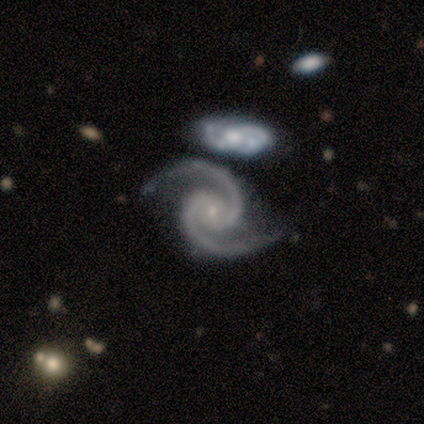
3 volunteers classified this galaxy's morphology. featured or disk 100%, smooth 0%, star or artifact 0%. Down the decision tree: edge-on disk — no (100%); bar — no (67%); spiral arms — yes (100%); spiral arm count — 2 (100%); spiral winding — medium (67%); bulge size — small (67%); merging — none (33%, tied with minor disturbance and merger).